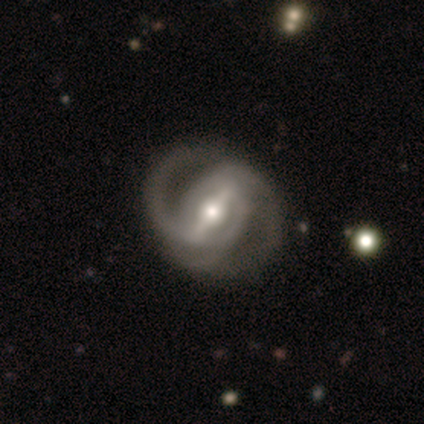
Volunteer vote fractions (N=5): Smooth or featured?
  - featured or disk: 60% *
  - smooth: 20%
  - star or artifact: 20%
Edge-on disk?
  - no: 67% *
  - yes: 33%
Bar?
  - strong: 100% *
  - weak: 0%
  - no: 0%
Spiral arms?
  - yes: 100% *
  - no: 0%
Spiral winding?
  - tight: 50% * (tied)
  - medium: 50% * (tied)
  - loose: 0%
Spiral arm count?
  - 2: 100% *
  - 1: 0%
  - 3: 0%
  - 4: 0%
  - more than 4: 0%
  - can't tell: 0%
Bulge size?
  - moderate: 100% *
  - dominant: 0%
  - large: 0%
  - small: 0%
  - none: 0%
Merging?
  - none: 50% *
  - minor disturbance: 25%
  - major disturbance: 25%
  - merger: 0%